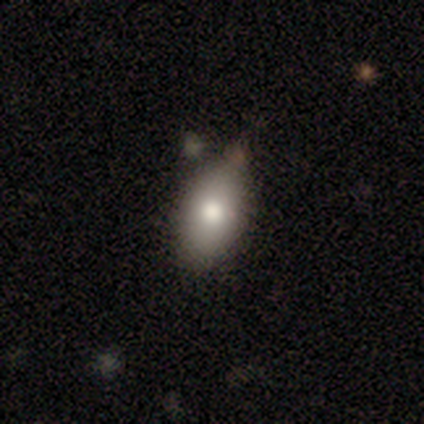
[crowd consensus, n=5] A smooth galaxy with no disk features (80%) that is in between round and cigar-shaped (75%).

Vote fractions:
- Smooth or featured? smooth: 80% / featured or disk: 20% / star or artifact: 0%
- How rounded? in between: 75% / cigar-shaped: 25% / round: 0%
- Merging? none: 100% / minor disturbance: 0% / major disturbance: 0% / merger: 0%